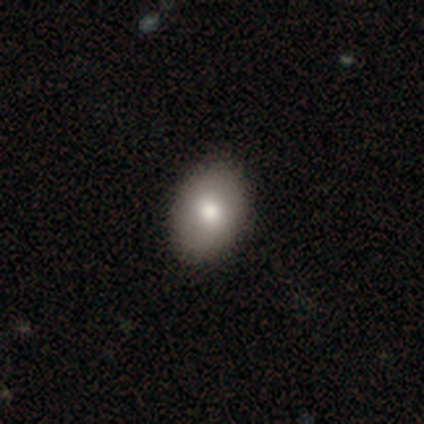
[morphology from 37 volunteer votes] A smooth galaxy with no disk features (84%) that is in between round and cigar-shaped (84%).

Vote fractions:
- Smooth or featured? smooth: 84% / featured or disk: 8% / star or artifact: 8%
- How rounded? in between: 84% / round: 16% / cigar-shaped: 0%
- Merging? none: 85% / minor disturbance: 12% / major disturbance: 3% / merger: 0%